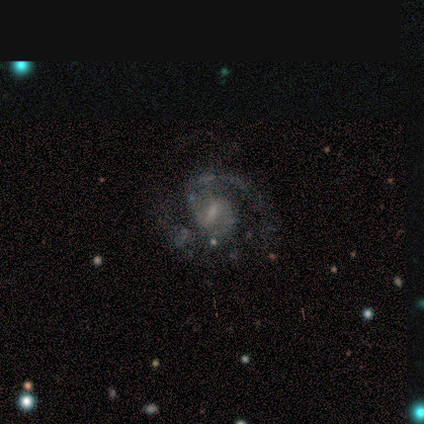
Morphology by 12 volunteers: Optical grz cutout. It shows a featured or disk galaxy (100%) with a weak bar (58%), 2 (82%) medium (64%) spiral arms (92%) and a small central bulge (67%). Merging: none (50%).